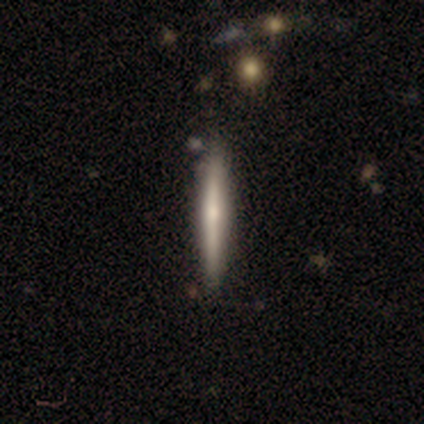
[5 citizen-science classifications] smooth-or-featured: featured or disk: 80% | star or artifact: 20% | smooth: 0%
  disk-edge-on: yes: 100% | no: 0%
    edge-on-bulge: rounded: 75% | boxy: 25% | none: 0%
  merging: none: 100% | minor disturbance: 0% | major disturbance: 0% | merger: 0%